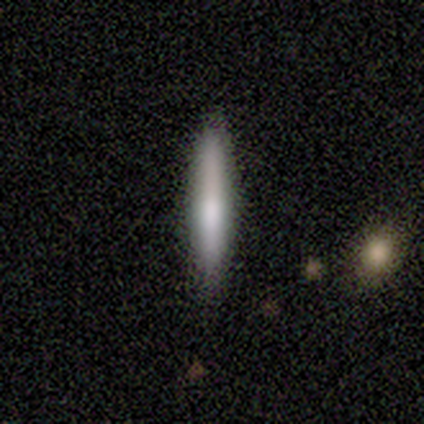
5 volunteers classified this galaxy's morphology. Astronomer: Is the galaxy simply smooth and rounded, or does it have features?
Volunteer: smooth — 80%.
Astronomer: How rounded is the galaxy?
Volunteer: cigar-shaped — 75%.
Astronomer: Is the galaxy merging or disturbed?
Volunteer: none — 100%.